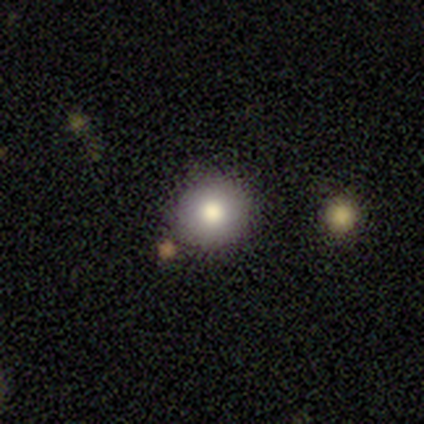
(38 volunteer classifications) Smooth or featured?
  - smooth: 76% *
  - featured or disk: 16%
  - star or artifact: 8%
How rounded?
  - round: 90% *
  - in between: 10%
  - cigar-shaped: 0%
Merging?
  - none: 83% *
  - merger: 11%
  - minor disturbance: 6%
  - major disturbance: 0%